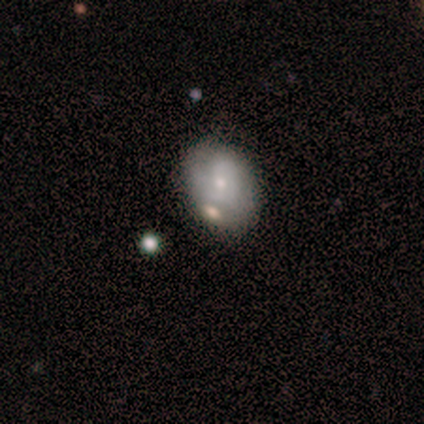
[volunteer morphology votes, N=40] Volunteers were most divided on "spiral arm count" (2-way tie): 1: 31%, can't tell: 31%, 2: 23%, 3: 8%, 4: 8%, more than 4: 0%. More confident: edge-on disk — no (100%); bar — no (71%); bulge size — small (67%); spiral arms — yes (62%); spiral winding — tight (62%); merging — none (53%); smooth or featured — featured or disk (52%).